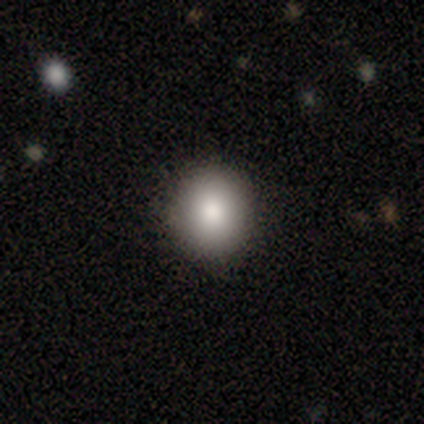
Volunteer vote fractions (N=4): This is clearly a smooth galaxy (100%). How rounded: clearly round (100%). Merging: clearly none (100%).